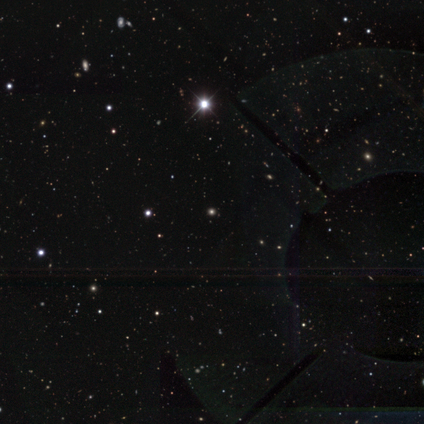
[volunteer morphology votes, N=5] type=star or artifact (80%).